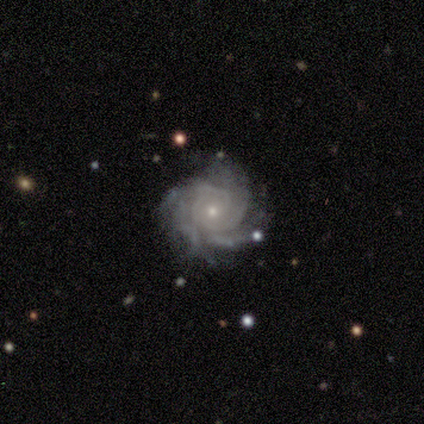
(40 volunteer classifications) Smooth or featured? 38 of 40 (95%) said featured or disk. Edge-on disk? 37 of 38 (97%) said no. Bar? 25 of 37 (68%) said no. Spiral arms? 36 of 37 (97%) said yes. Spiral winding? 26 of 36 (72%) said tight. Spiral arm count? 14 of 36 (39%) said 4. Bulge size? 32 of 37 (86%) said small. Merging? 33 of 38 (87%) said none.